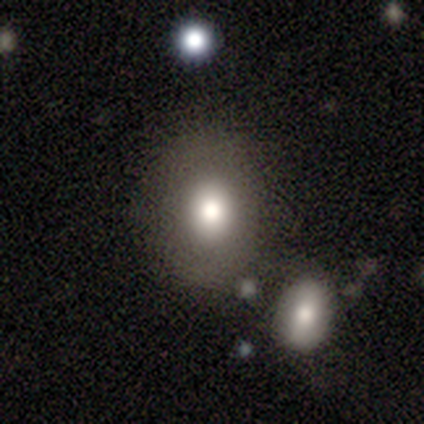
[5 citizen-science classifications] Volunteers were most divided on "smooth or featured": smooth: 60%, featured or disk: 40%, star or artifact: 0%. More confident: merging — none (80%); how rounded — in between (67%).